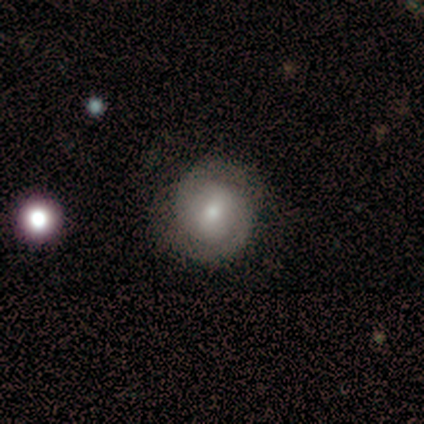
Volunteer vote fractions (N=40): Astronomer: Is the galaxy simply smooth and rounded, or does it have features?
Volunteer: featured or disk — 52% (runner-up: smooth, 48%).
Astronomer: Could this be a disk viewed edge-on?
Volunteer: no — 100%.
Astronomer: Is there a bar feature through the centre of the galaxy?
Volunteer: weak — 52% (runner-up: no, 48%).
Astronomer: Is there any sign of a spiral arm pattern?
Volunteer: yes — 95%.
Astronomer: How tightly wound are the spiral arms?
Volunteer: tight — 60%.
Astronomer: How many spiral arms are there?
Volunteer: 2 — 90%.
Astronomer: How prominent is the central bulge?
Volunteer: moderate — 57% (runner-up: small, 33%).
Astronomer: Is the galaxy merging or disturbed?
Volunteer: none — 82%.